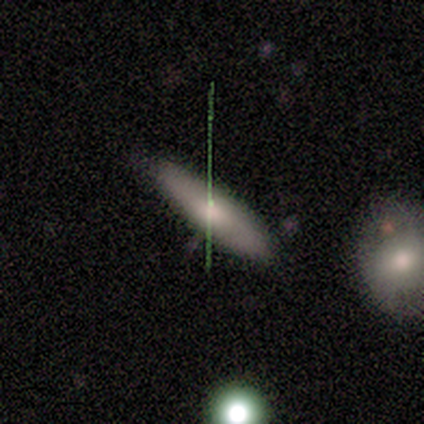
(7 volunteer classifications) Volunteers were most divided on "how rounded": cigar-shaped: 83%, in between: 17%, round: 0%. More confident: smooth or featured — smooth (86%); merging — none (86%).